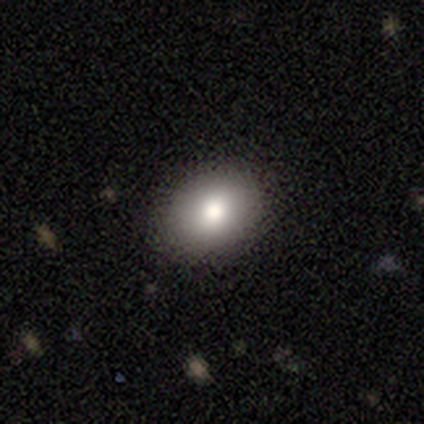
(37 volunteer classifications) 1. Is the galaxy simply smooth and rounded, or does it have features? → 78% smooth, 14% star or artifact, 8% featured or disk.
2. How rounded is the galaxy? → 52% round, 48% in between, 0% cigar-shaped.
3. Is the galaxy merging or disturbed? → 100% none, 0% minor disturbance, 0% major disturbance, 0% merger.